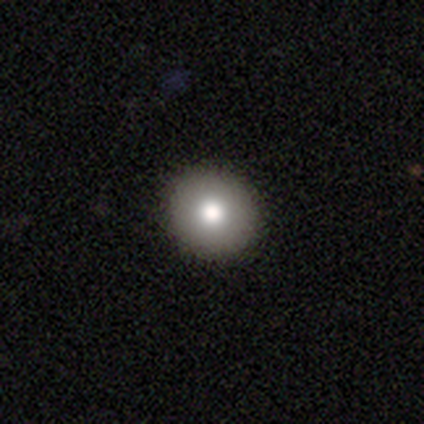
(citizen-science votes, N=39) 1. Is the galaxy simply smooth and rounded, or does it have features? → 95% smooth, 5% featured or disk, 0% star or artifact.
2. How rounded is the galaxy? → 97% round, 3% in between, 0% cigar-shaped.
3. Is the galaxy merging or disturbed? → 64% none, 3% minor disturbance, 0% major disturbance, 0% merger.